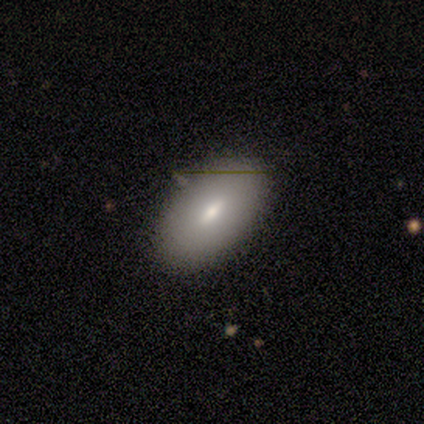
Volunteers were most divided on "smooth or featured": smooth: 60%, featured or disk: 40%, star or artifact: 0%. More confident: how rounded — in between (100%); merging — none (80%).